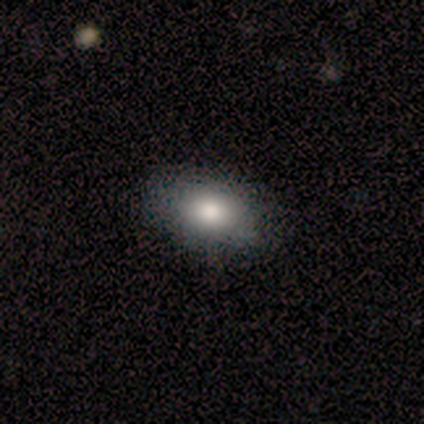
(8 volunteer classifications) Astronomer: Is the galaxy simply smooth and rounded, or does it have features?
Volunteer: smooth — 75%.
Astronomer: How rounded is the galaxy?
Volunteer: in between — 100%.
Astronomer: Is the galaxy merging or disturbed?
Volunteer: none — 86%.